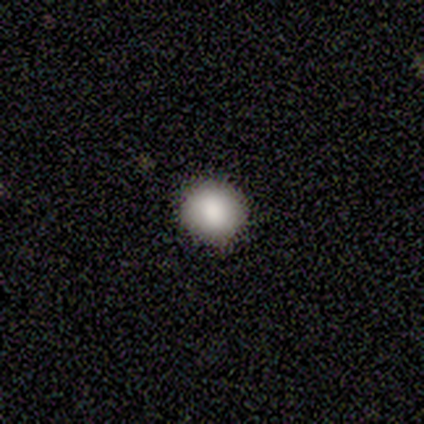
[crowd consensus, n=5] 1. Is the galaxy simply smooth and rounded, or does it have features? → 100% smooth, 0% featured or disk, 0% star or artifact.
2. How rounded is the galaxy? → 100% round, 0% in between, 0% cigar-shaped.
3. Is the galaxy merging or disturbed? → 80% none, 20% minor disturbance, 0% major disturbance, 0% merger.